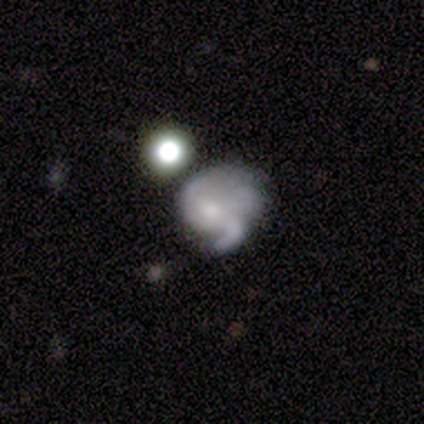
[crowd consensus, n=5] Volunteers were most divided on "spiral winding" (2-way tie): medium: 40%, loose: 40%, tight: 20%; "merging" (2-way tie): none: 40%, major disturbance: 40%, merger: 20%, minor disturbance: 0%. More confident: smooth or featured — featured or disk (100%); edge-on disk — no (100%); bar — no (100%); spiral arms — yes (100%); spiral arm count — 1 (80%); bulge size — small (80%).